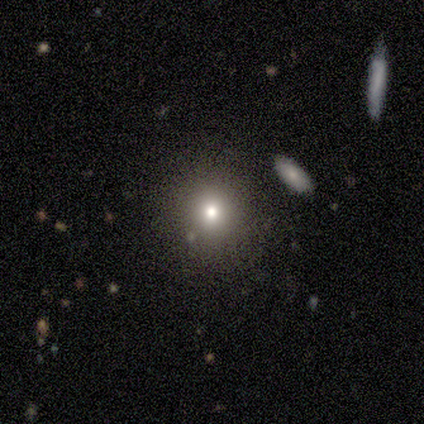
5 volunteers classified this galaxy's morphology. Smooth or featured: star or artifact — 60% (smooth — 40%)